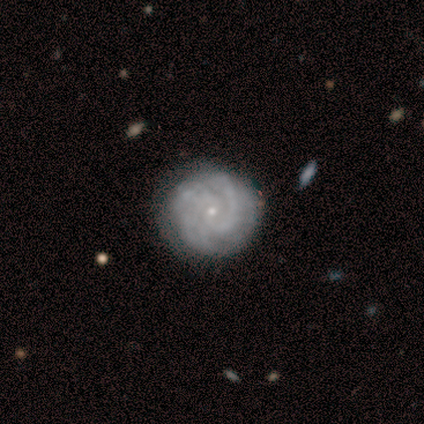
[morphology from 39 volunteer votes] This appears to be a featured or disk galaxy (77%) with no bar (77%), 2 (32%) tight (75%) spiral arms (93%) and a small central bulge (90%). Merging: none (74%).